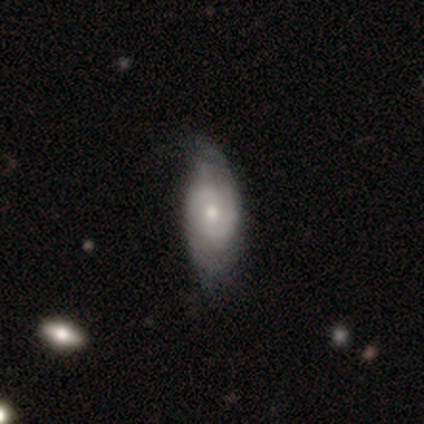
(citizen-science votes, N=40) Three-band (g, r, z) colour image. It shows a featured or disk galaxy (80%) with no bar (58%), 2 (78%) medium (52%) spiral arms (87%) and a moderate central bulge (55%). Merging: none (55%).